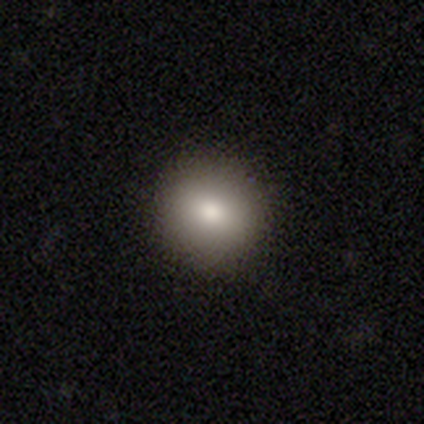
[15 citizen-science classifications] Smooth or featured: smooth — 80% (featured or disk — 20%)
How rounded: round — 100%
Merging: none — 100%